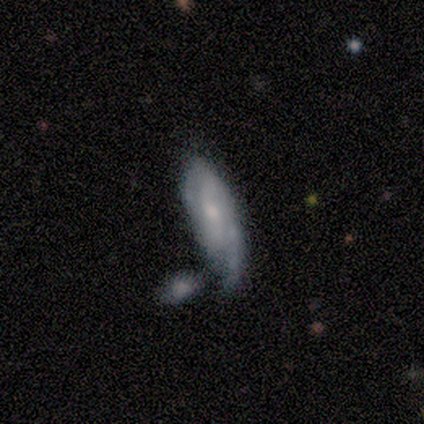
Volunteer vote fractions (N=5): featured or disk 80%, smooth 20%, star or artifact 0%. Down the decision tree: edge-on disk — no (100%); bar — weak (75%); spiral arms — yes (100%); spiral arm count — 2 (50%, tied with can't tell); spiral winding — medium (50%); bulge size — moderate (75%); merging — minor disturbance (60%).